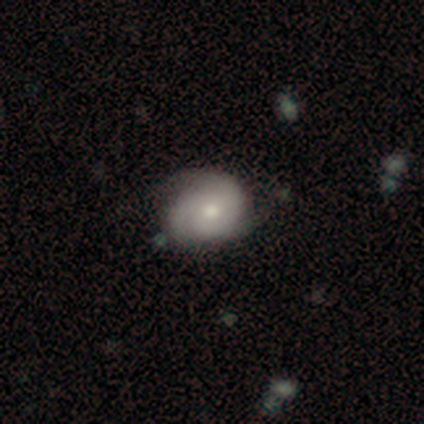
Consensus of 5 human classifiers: Smooth or featured? featured or disk (100%)
Edge-on disk? no (100%)
Bar? no (100%)
Spiral arms? yes (100%)
Spiral winding? tight (60%)
Spiral arm count? 3 (60%)
Bulge size? moderate (80%)
Merging? none (60%)